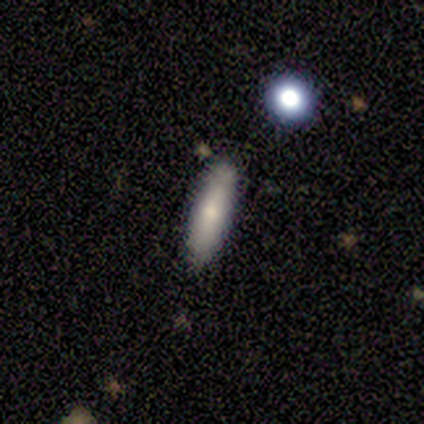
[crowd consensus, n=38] Morphology: type=smooth (71%); roundness=cigar-shaped (81%); merging=none (95%).